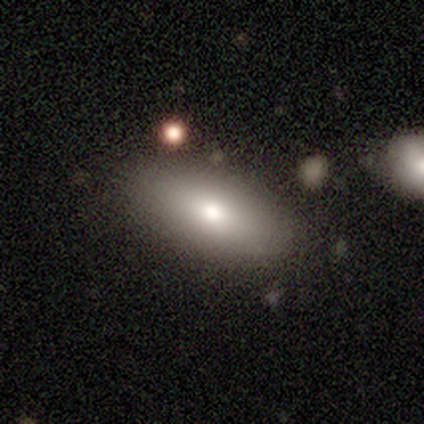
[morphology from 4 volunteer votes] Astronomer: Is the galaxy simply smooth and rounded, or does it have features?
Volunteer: smooth — 50%, tied with featured or disk at 50%.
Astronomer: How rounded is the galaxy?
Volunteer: in between — 100%.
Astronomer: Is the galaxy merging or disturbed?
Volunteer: none — 75%.